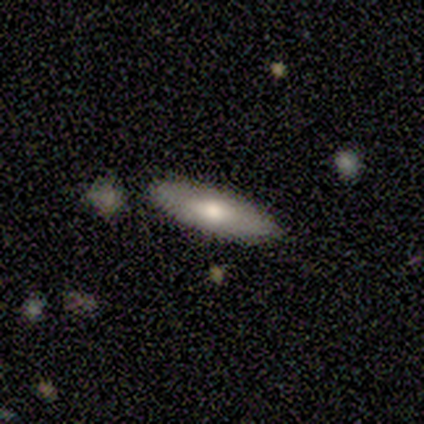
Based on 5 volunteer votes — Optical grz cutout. It shows a featured or disk galaxy (60%) viewed edge-on (100%) with no central bulge (67%). Merging: none (100%).